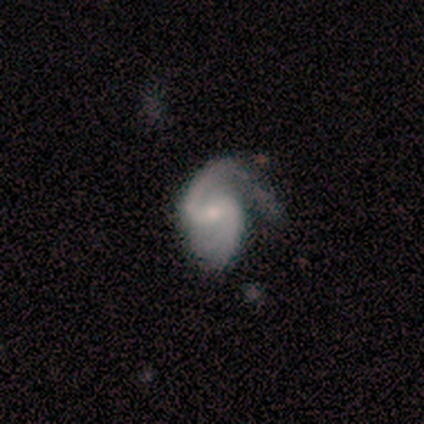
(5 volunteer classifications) A featured or disk galaxy (60%) with a weak bar (67%), 2 (100%) medium (100%) spiral arms (67%) and a small central bulge (67%).

Vote fractions:
- Smooth or featured? featured or disk: 60% / smooth: 40% / star or artifact: 0%
- Edge-on disk? no: 100% / yes: 0%
- Bar? weak: 67% / no: 33% / strong: 0%
- Spiral arms? yes: 67% / no: 33%
- Spiral winding? medium: 100% / tight: 0% / loose: 0%
- Spiral arm count? 2: 100% / 1: 0% / 3: 0% / 4: 0% / more than 4: 0% / can't tell: 0%
- Bulge size? small: 67% / none: 33% / dominant: 0% / large: 0% / moderate: 0%
- Merging? major disturbance: 60% / minor disturbance: 20% / merger: 20% / none: 0%